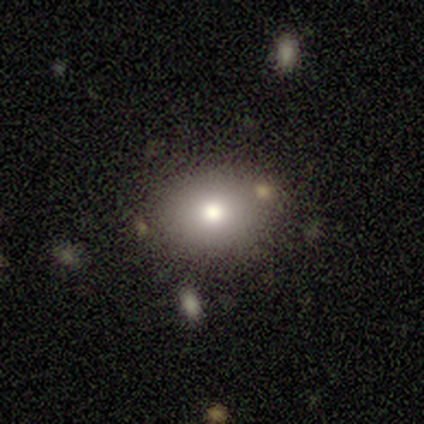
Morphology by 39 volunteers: smooth 72%, featured or disk 15%, star or artifact 13%. Down the decision tree: how rounded — in between (64%); merging — none (82%).